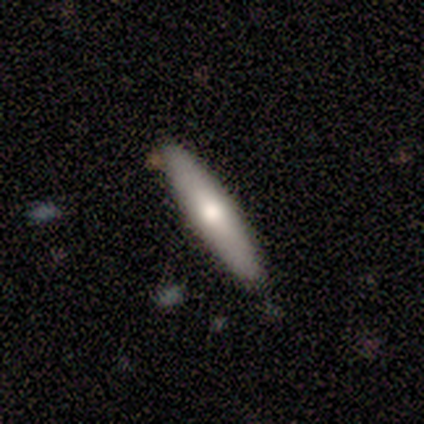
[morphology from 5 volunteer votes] Smooth or featured? smooth (80%)
How rounded? cigar-shaped (75%)
Merging? none (60%)